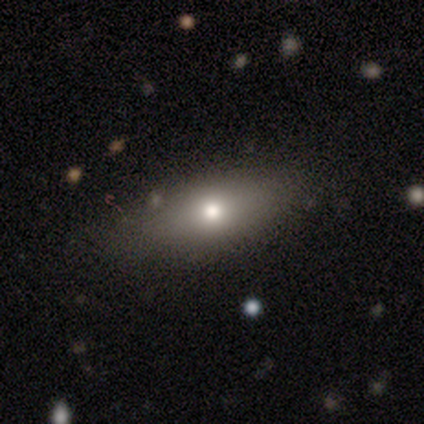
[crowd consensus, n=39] Morphology: type=smooth (72%); roundness=in between (79%); merging=none (82%).